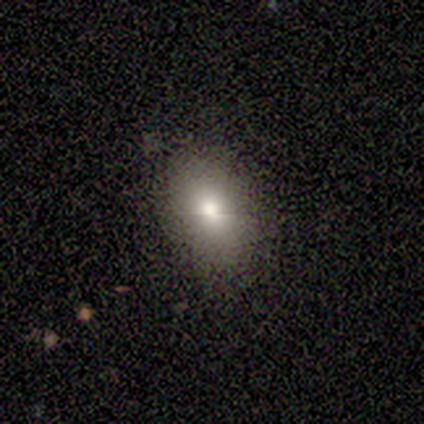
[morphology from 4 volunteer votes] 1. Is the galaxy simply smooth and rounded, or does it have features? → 100% smooth, 0% featured or disk, 0% star or artifact.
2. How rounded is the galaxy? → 50% in between, 25% round, 25% cigar-shaped.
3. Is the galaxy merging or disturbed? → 75% none, 25% major disturbance, 0% minor disturbance, 0% merger.